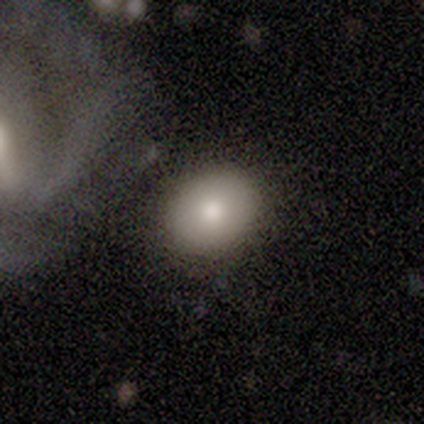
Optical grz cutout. It shows a smooth galaxy with no disk features (80%) that is in between round and cigar-shaped (75%). Merging: none (60%).